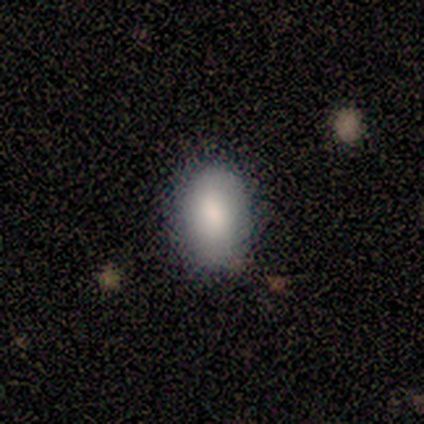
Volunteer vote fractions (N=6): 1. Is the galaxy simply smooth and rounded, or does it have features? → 100% smooth, 0% featured or disk, 0% star or artifact.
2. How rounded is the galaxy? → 100% in between, 0% round, 0% cigar-shaped.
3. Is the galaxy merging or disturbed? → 100% none, 0% minor disturbance, 0% major disturbance, 0% merger.